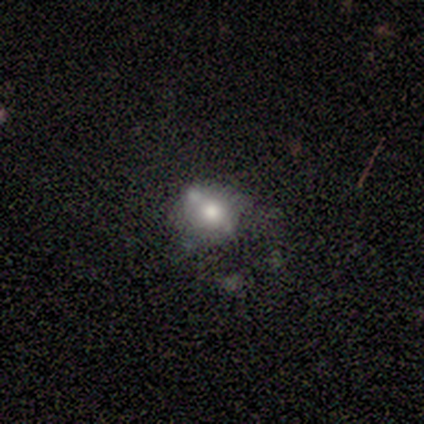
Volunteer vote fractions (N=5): Smooth or featured? 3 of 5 (60%) said smooth. How rounded? 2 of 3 (67%) said round. Merging? 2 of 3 (67%) said minor disturbance.